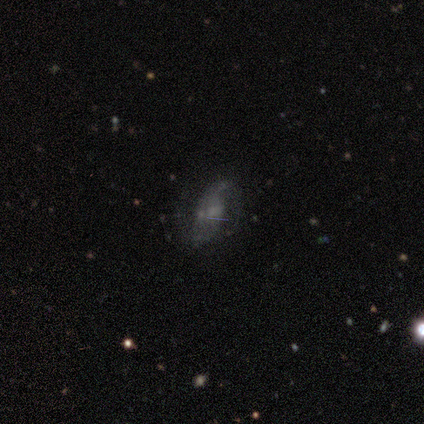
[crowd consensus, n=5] Smooth or featured?
  - featured or disk: 80% *
  - star or artifact: 20%
  - smooth: 0%
Edge-on disk?
  - no: 100% *
  - yes: 0%
Bar?
  - weak: 50% * (tied)
  - no: 50% * (tied)
  - strong: 0%
Spiral arms?
  - yes: 100% *
  - no: 0%
Spiral winding?
  - loose: 75% *
  - medium: 25%
  - tight: 0%
Spiral arm count?
  - 2: 100% *
  - 1: 0%
  - 3: 0%
  - 4: 0%
  - more than 4: 0%
  - can't tell: 0%
Bulge size?
  - moderate: 50% * (tied)
  - none: 50% * (tied)
  - dominant: 0%
  - large: 0%
  - small: 0%
Merging?
  - none: 75% *
  - minor disturbance: 25%
  - major disturbance: 0%
  - merger: 0%